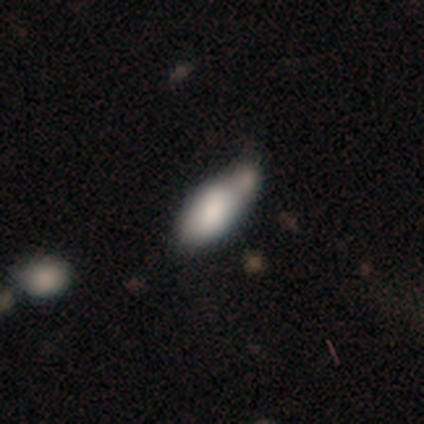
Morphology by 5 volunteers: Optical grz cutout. It shows a smooth galaxy with no disk features (80%) that is in between round and cigar-shaped (100%). Merging: none (40%, tied with merger).